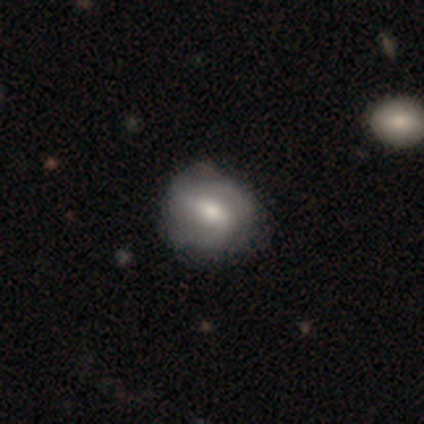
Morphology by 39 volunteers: featured or disk 77%, smooth 15%, star or artifact 8%. Down the decision tree: edge-on disk — no (97%); bar — weak (55%); spiral arms — yes (76%); spiral arm count — 2 (55%); spiral winding — medium (64%); bulge size — moderate (79%); merging — none (72%).